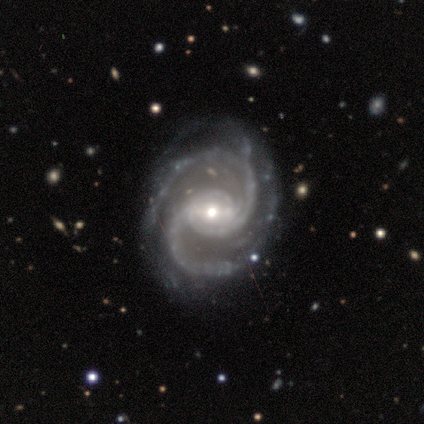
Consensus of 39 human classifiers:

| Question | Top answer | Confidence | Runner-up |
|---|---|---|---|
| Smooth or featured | featured or disk | 97% | star or artifact (3%) |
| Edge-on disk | no | 95% | yes (5%) |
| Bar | weak | 53% | strong (25%) |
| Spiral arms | yes | 100% | — |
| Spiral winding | medium | 50% | tight (39%) |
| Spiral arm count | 2 | 92% | 3 (8%) |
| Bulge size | moderate | 50% | small (47%) |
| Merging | none | 79% | minor disturbance (16%) |